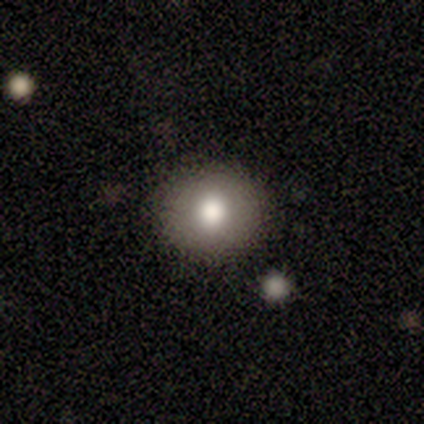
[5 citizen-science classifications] Overall: smooth (80%). How rounded: round (100%). Merging: none (100%).